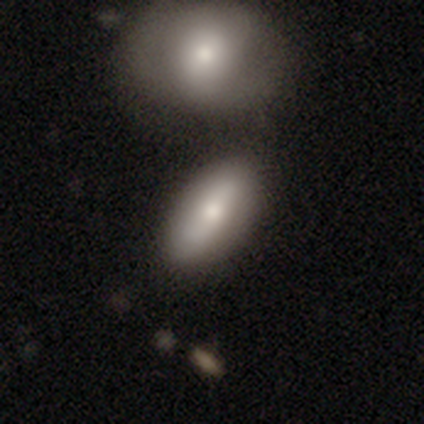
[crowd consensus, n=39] Morphology: type=smooth (67%); roundness=in between (81%); merging=none (71%).